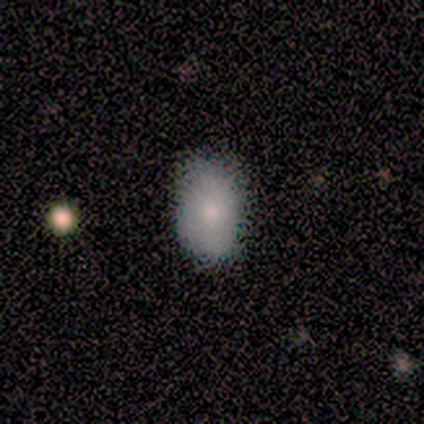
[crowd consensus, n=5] Q: Smooth or featured?
A: smooth (100%)
Q: How rounded?
A: in between (100%)
Q: Merging?
A: none (80%); runner-up: minor disturbance (20%)